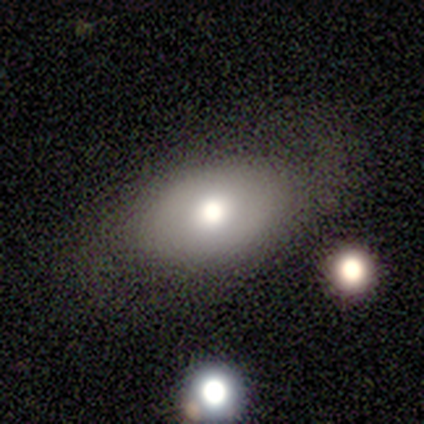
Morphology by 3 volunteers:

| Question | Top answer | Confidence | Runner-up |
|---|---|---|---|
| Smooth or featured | featured or disk | 67% | smooth (33%) |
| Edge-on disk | yes | 50% | tied: no (50%) |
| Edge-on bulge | rounded | 100% | — |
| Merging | none | 100% | — |